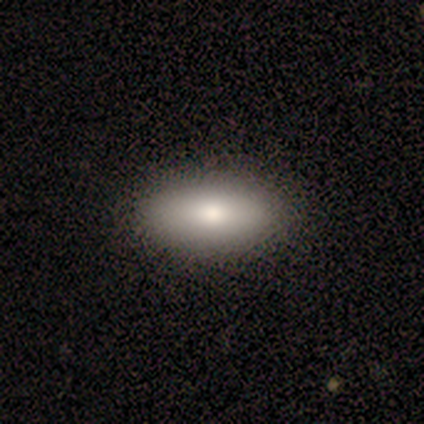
Smooth or featured? smooth (100%)
How rounded? in between (80%)
Merging? none (60%)